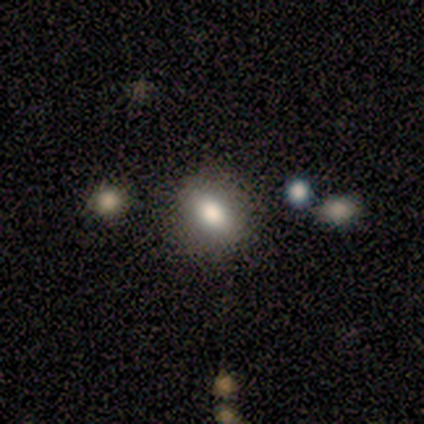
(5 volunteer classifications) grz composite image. It shows a smooth galaxy with no disk features (80%) that is in between round and cigar-shaped (100%). Merging: none (60%).